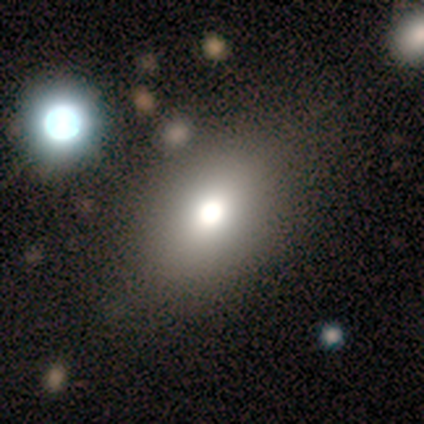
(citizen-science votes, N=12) Smooth or featured? smooth (83%)
How rounded? in between (70%)
Merging? none (90%)